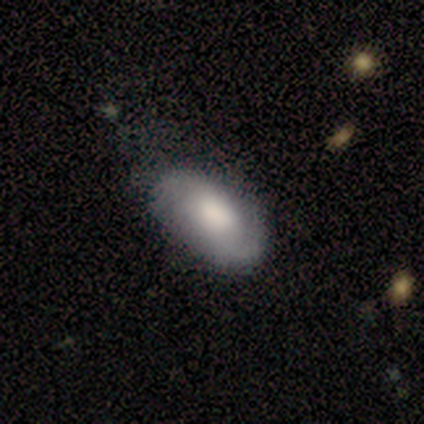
Morphology: type=smooth (44%); roundness=in between (100%); merging=none (71%).